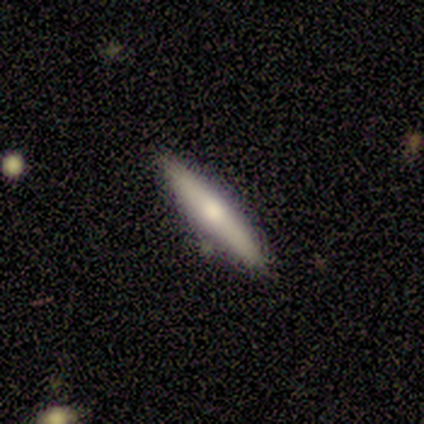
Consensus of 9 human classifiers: featured or disk 56%, smooth 44%, star or artifact 0%. Down the decision tree: edge-on disk — yes (80%); edge-on bulge — none (50%, tied with rounded); merging — none (89%).